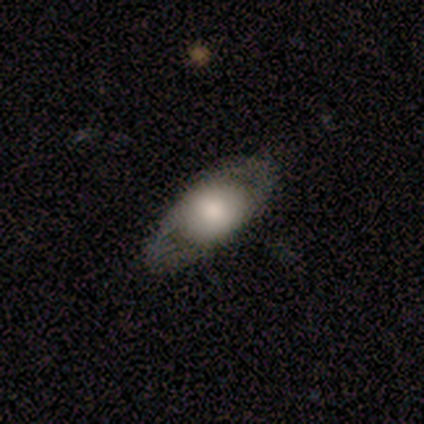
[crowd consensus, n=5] Morphology: type=smooth (40%, tied with featured or disk); roundness=in between (100%); merging=none (100%).